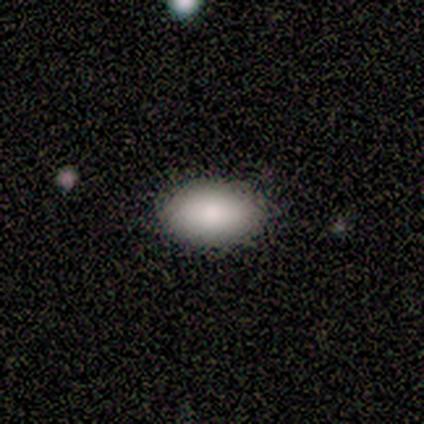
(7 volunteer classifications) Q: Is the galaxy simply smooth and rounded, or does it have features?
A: smooth — 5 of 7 (71%).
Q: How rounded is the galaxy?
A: in between — 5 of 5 (100%).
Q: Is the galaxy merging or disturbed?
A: none — 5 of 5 (100%).